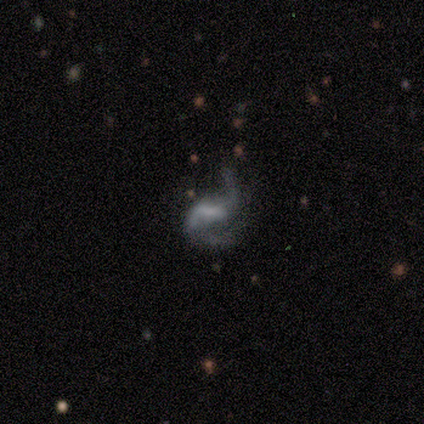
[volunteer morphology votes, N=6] smooth_or_featured: featured or disk (p=0.67) [alt: smooth p=0.17]
disk_edge_on: no (p=1.00)
bar: weak (p=0.50) [alt: strong p=0.25]
has_spiral_arms: yes (p=1.00)
spiral_winding: medium (p=0.75) [alt: tight p=0.25]
spiral_arm_count: 2 (p=1.00)
bulge_size: small (p=0.75) [alt: dominant p=0.25]
merging: major disturbance (p=0.60) [alt: none p=0.20]